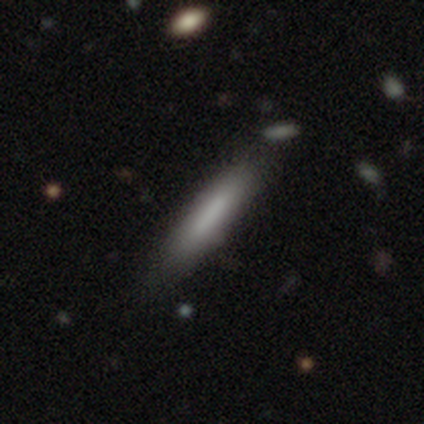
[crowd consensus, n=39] This is likely a smooth galaxy (69%). How rounded: clearly cigar-shaped (96%). Merging: possibly none (58%).